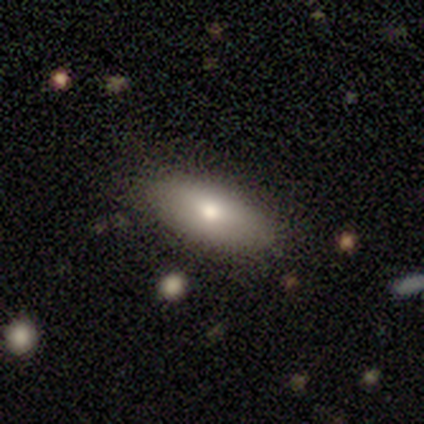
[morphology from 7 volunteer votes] Volunteers were most divided on "smooth or featured": smooth: 57%, featured or disk: 43%, star or artifact: 0%. More confident: merging — none (100%); how rounded — in between (75%).